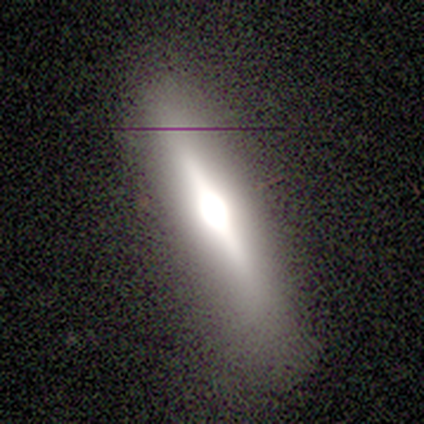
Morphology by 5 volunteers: smooth-or-featured: featured or disk: 100% | smooth: 0% | star or artifact: 0%
  disk-edge-on: yes: 80% | no: 20%
    edge-on-bulge: rounded: 75% | boxy: 25% | none: 0%
  merging: none: 100% | minor disturbance: 0% | major disturbance: 0% | merger: 0%